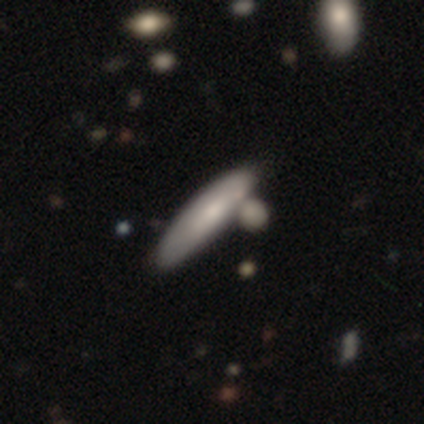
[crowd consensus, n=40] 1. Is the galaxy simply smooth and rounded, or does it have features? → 60% smooth, 38% featured or disk, 2% star or artifact.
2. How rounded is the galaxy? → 88% cigar-shaped, 12% in between, 0% round.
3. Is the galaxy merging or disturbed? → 46% merger, 28% none, 15% minor disturbance, 0% major disturbance.